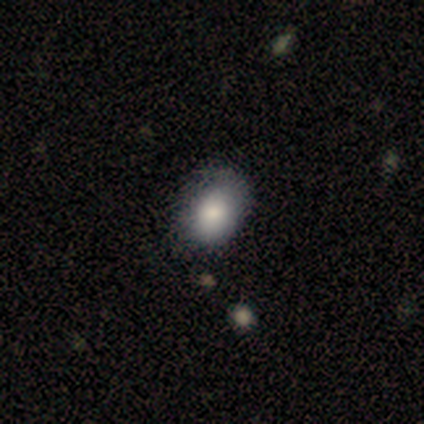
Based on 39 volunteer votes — Smooth or featured: smooth — 82% (featured or disk — 13%)
How rounded: in between — 84% (round — 16%)
Merging: none — 70% (minor disturbance — 22%)